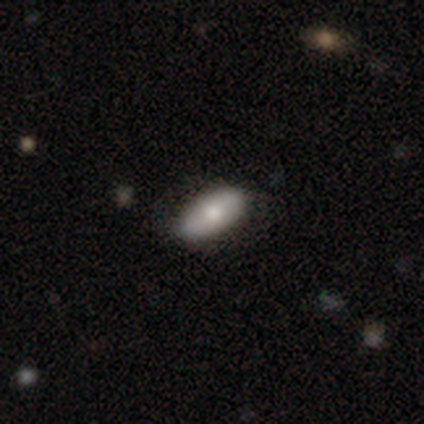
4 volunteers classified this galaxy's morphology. Smooth or featured? 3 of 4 (75%) said smooth. How rounded? 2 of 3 (67%) said in between. Merging? 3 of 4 (75%) said none.